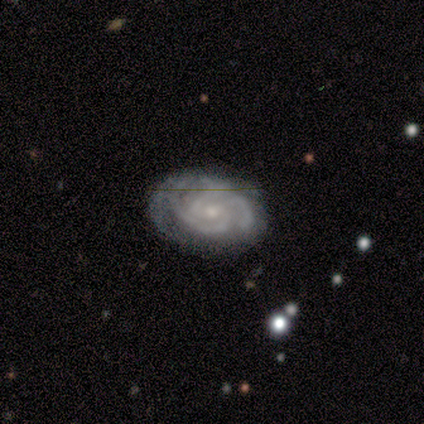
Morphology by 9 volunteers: A featured or disk galaxy (89%) with no bar (75%), 3 (75%) tight (100%) spiral arms (100%) and a moderate central bulge (62%).

Vote fractions:
- Smooth or featured? featured or disk: 89% / star or artifact: 11% / smooth: 0%
- Edge-on disk? no: 100% / yes: 0%
- Bar? no: 75% / weak: 25% / strong: 0%
- Spiral arms? yes: 100% / no: 0%
- Spiral winding? tight: 100% / medium: 0% / loose: 0%
- Spiral arm count? 3: 75% / 2: 12% / can't tell: 12% / 1: 0% / 4: 0% / more than 4: 0%
- Bulge size? moderate: 62% / small: 38% / dominant: 0% / large: 0% / none: 0%
- Merging? none: 88% / minor disturbance: 12% / major disturbance: 0% / merger: 0%